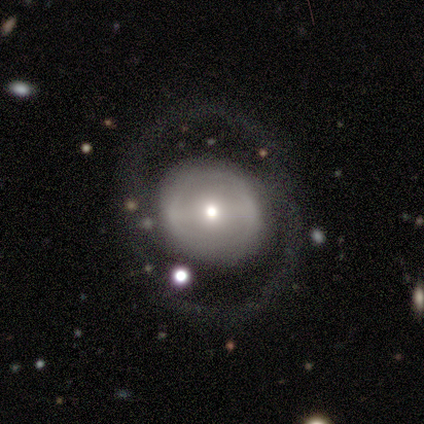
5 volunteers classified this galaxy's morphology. This is likely a featured or disk galaxy (60%). It is clearly not viewed edge-on (100%). Bar: clearly no (100%). Spiral arm pattern: clearly no (100%). Central bulge: likely small (67%). Merging: clearly none (100%).